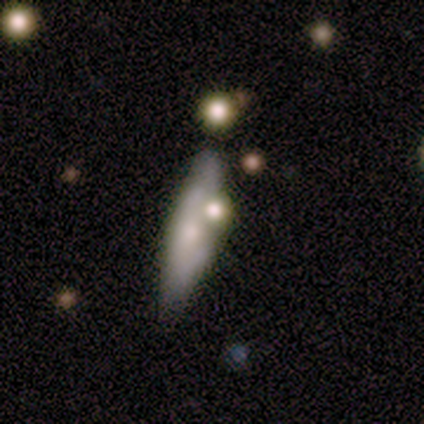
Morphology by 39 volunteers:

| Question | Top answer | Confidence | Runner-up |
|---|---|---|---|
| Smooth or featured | smooth | 59% | featured or disk (31%) |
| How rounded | cigar-shaped | 61% | in between (39%) |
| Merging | none | 54% | minor disturbance (20%) |